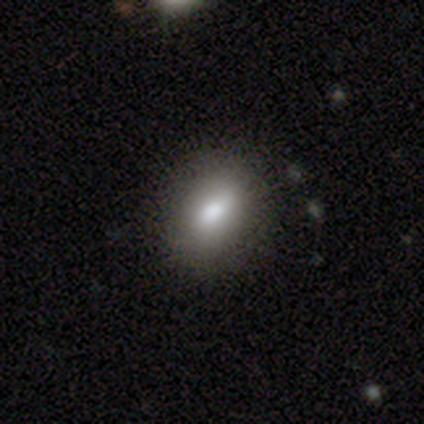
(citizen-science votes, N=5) Q: Smooth or featured?
A: smooth (80%); runner-up: featured or disk (20%)
Q: How rounded?
A: round (75%); runner-up: in between (25%)
Q: Merging?
A: none (100%)